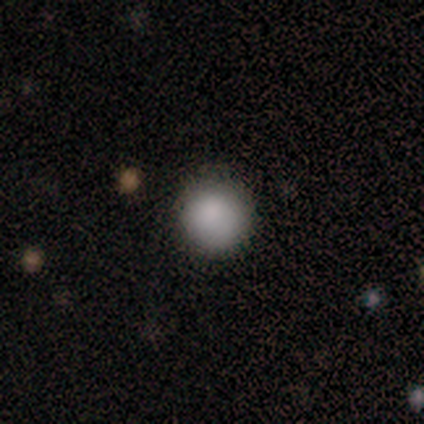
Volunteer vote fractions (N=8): Smooth or featured? 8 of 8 (100%) said smooth. How rounded? 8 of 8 (100%) said round. Merging? 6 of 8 (75%) said none.